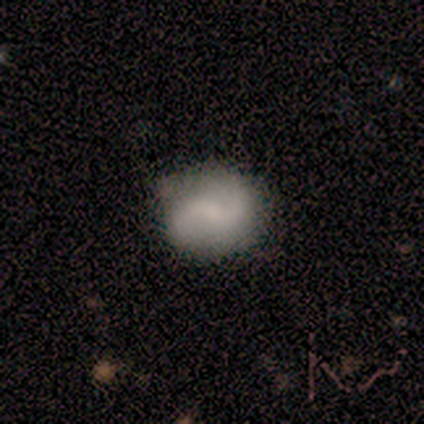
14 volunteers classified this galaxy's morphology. Smooth or featured: featured or disk — 64% (smooth — 36%)
Edge-on disk: no — 100%
Bar: no — 44% (weak — 33%)
Spiral arms: yes — 89% (no — 11%)
Spiral winding: loose — 75% (tight — 12%)
Spiral arm count: 2 — 88% (1 — 12%)
Bulge size: none — 56% (moderate — 22%)
Merging: none — 79% (minor disturbance — 21%)